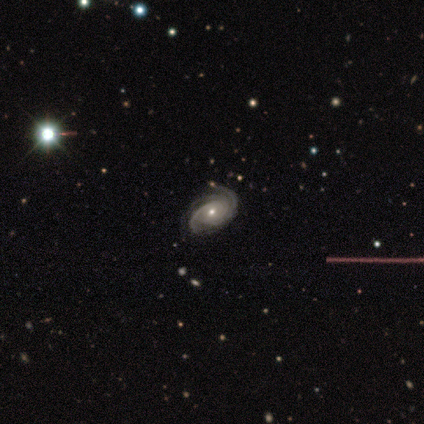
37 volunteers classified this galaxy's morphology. Smooth or featured?
  - featured or disk: 97% *
  - star or artifact: 3%
  - smooth: 0%
Edge-on disk?
  - no: 94% *
  - yes: 6%
Bar?
  - no: 79% *
  - weak: 12%
  - strong: 9%
Spiral arms?
  - yes: 100% *
  - no: 0%
Spiral winding?
  - tight: 76% *
  - medium: 21%
  - loose: 3%
Spiral arm count?
  - 3: 38% *
  - 2: 26%
  - can't tell: 18%
  - 4: 15%
  - more than 4: 3%
  - 1: 0%
Bulge size?
  - small: 56% *
  - moderate: 44%
  - dominant: 0%
  - large: 0%
  - none: 0%
Merging?
  - none: 97% *
  - major disturbance: 3%
  - minor disturbance: 0%
  - merger: 0%